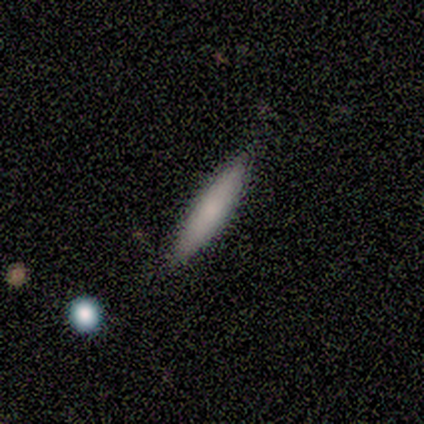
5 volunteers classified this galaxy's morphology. This appears to be a smooth galaxy with no disk features (80%) that is cigar-shaped (100%). Merging: none (100%).